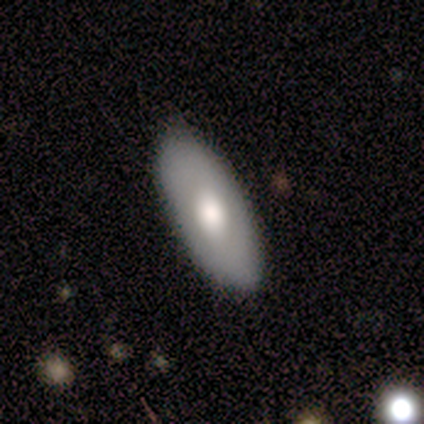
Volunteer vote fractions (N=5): Smooth or featured?
  - smooth: 80% *
  - featured or disk: 20%
  - star or artifact: 0%
How rounded?
  - in between: 100% *
  - round: 0%
  - cigar-shaped: 0%
Merging?
  - none: 100% *
  - minor disturbance: 0%
  - major disturbance: 0%
  - merger: 0%